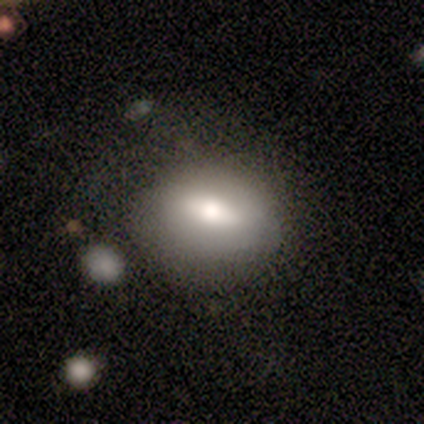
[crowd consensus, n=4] Smooth or featured?
  - smooth: 50% * (tied)
  - featured or disk: 50% * (tied)
  - star or artifact: 0%
How rounded?
  - round: 50% * (tied)
  - in between: 50% * (tied)
  - cigar-shaped: 0%
Merging?
  - none: 100% *
  - minor disturbance: 0%
  - major disturbance: 0%
  - merger: 0%